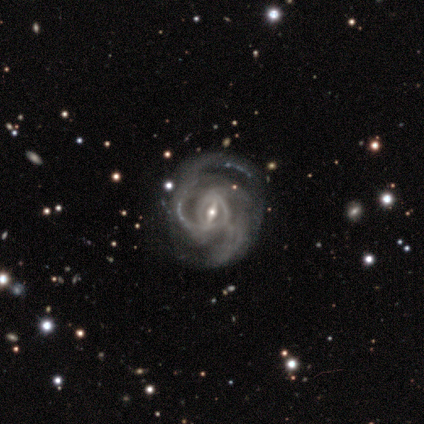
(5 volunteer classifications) featured or disk 100%, smooth 0%, star or artifact 0%. Down the decision tree: edge-on disk — no (100%); bar — weak (60%); spiral arms — yes (100%); spiral arm count — 2 (40%, tied with can't tell); spiral winding — tight (80%); bulge size — small (60%); merging — none (60%).